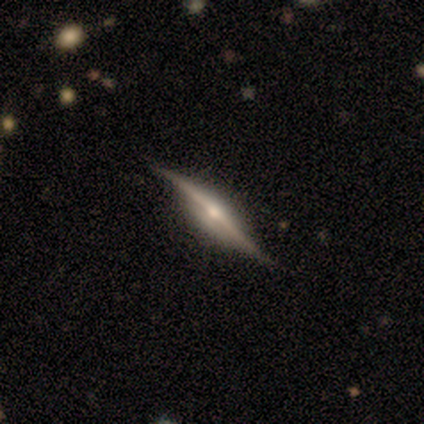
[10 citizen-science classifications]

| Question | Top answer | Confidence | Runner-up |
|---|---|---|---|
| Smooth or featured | featured or disk | 90% | star or artifact (10%) |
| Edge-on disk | yes | 78% | no (22%) |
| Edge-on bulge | rounded | 86% | boxy (14%) |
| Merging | none | 89% | minor disturbance (11%) |